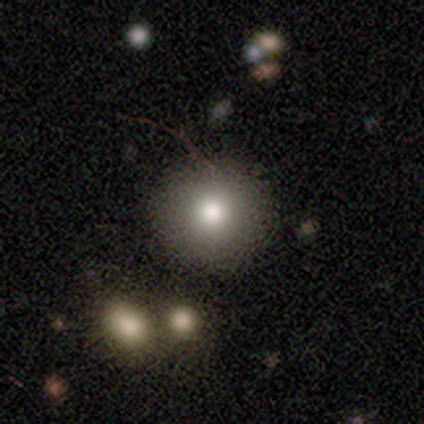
This is clearly a smooth galaxy (80%). How rounded: clearly round (100%). Merging: clearly none (80%).